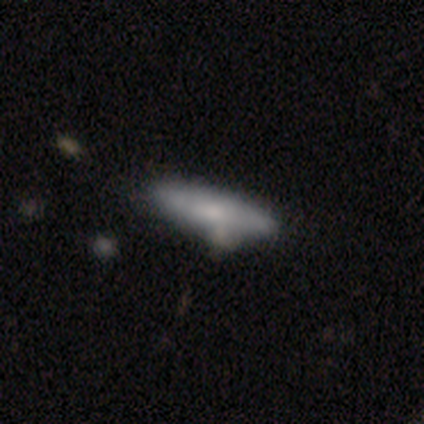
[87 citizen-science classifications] Smooth or featured: smooth — 62% (featured or disk — 33%)
How rounded: cigar-shaped — 81% (in between — 19%)
Merging: none — 63% (minor disturbance — 22%)